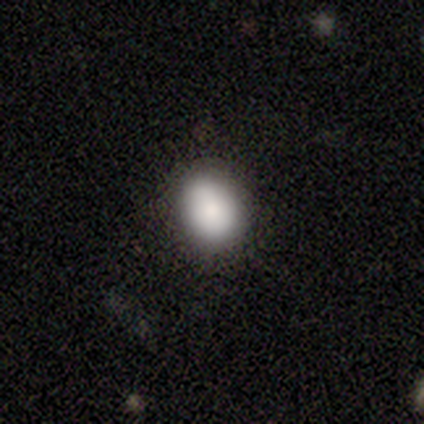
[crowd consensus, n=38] A smooth galaxy with no disk features (89%) that is round (56%). Merging: none (81%).